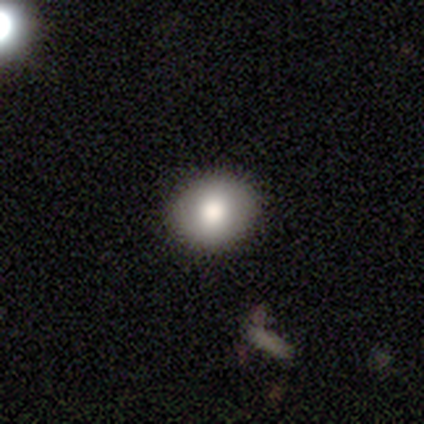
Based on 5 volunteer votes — This is clearly a smooth galaxy (80%). How rounded: likely round (75%). Merging: clearly none (100%).